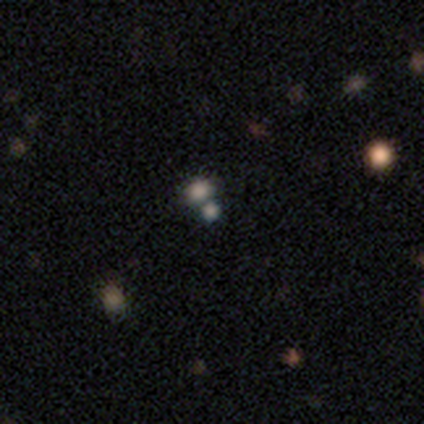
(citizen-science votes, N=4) Smooth or featured?
  - featured or disk: 50% *
  - smooth: 25%
  - star or artifact: 25%
Edge-on disk?
  - no: 100% *
  - yes: 0%
Bar?
  - no: 100% *
  - strong: 0%
  - weak: 0%
Spiral arms?
  - no: 100% *
  - yes: 0%
Bulge size?
  - moderate: 50% * (tied)
  - small: 50% * (tied)
  - dominant: 0%
  - large: 0%
  - none: 0%
Merging?
  - merger: 67% *
  - none: 33%
  - minor disturbance: 0%
  - major disturbance: 0%